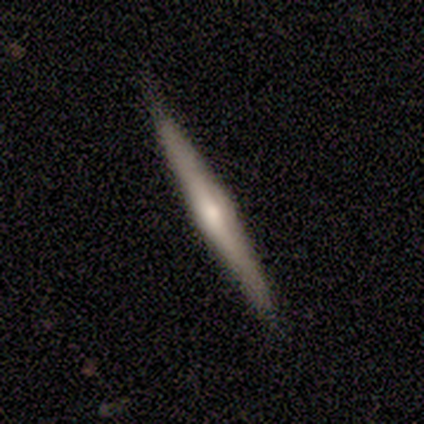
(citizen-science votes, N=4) Smooth or featured? featured or disk (75%)
Edge-on disk? yes (100%)
Edge-on bulge? rounded (67%)
Merging? none (75%)